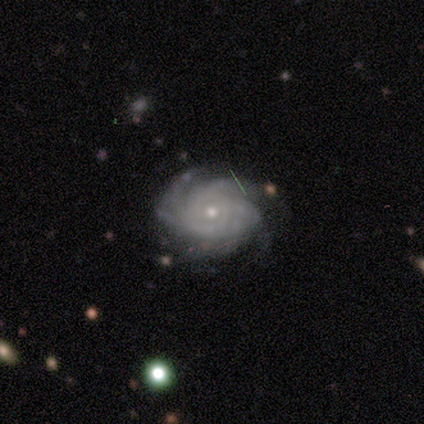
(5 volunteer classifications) smooth_or_featured: featured or disk (p=1.00)
disk_edge_on: no (p=1.00)
bar: no (p=1.00)
has_spiral_arms: yes (p=1.00)
spiral_winding: tight (p=0.60) [alt: medium p=0.40]
spiral_arm_count: 4 (p=0.60) [alt: can't tell p=0.40]
bulge_size: small (p=0.80) [alt: moderate p=0.20]
merging: none (p=0.80) [alt: minor disturbance p=0.20]